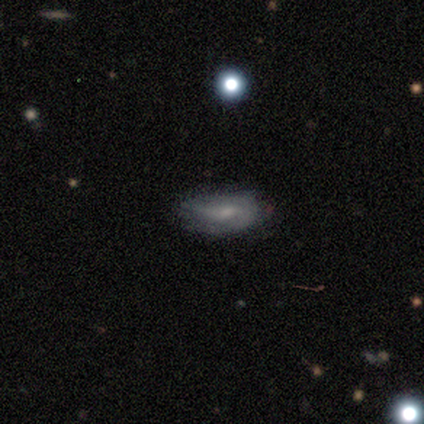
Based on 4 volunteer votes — Q: Smooth or featured?
A: featured or disk (75%); runner-up: smooth (25%)
Q: Edge-on disk?
A: no (100%)
Q: Bar?
A: weak (67%); runner-up: no (33%)
Q: Spiral arms?
A: yes (67%); runner-up: no (33%)
Q: Spiral winding?
A: medium (100%)
Q: Spiral arm count?
A: 2 (100%)
Q: Bulge size?
A: moderate (67%); runner-up: small (33%)
Q: Merging?
A: none (50%); runner-up: minor disturbance (25%)